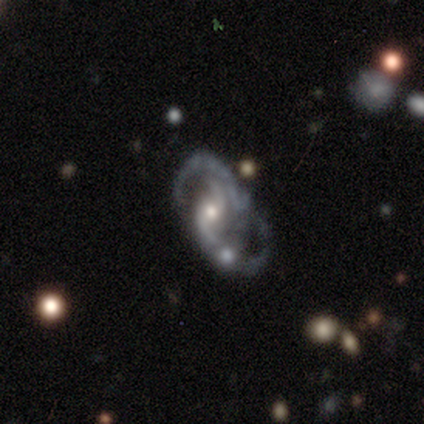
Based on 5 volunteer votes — Smooth or featured?
  - featured or disk: 100% *
  - smooth: 0%
  - star or artifact: 0%
Edge-on disk?
  - no: 100% *
  - yes: 0%
Bar?
  - weak: 60% *
  - no: 40%
  - strong: 0%
Spiral arms?
  - yes: 100% *
  - no: 0%
Spiral winding?
  - loose: 80% *
  - medium: 20%
  - tight: 0%
Spiral arm count?
  - 2: 100% *
  - 1: 0%
  - 3: 0%
  - 4: 0%
  - more than 4: 0%
  - can't tell: 0%
Bulge size?
  - moderate: 60% *
  - small: 40%
  - dominant: 0%
  - large: 0%
  - none: 0%
Merging?
  - none: 40% * (tied)
  - merger: 40% * (tied)
  - major disturbance: 20%
  - minor disturbance: 0%